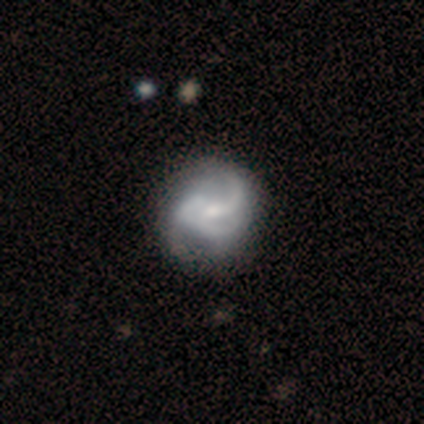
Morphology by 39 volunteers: smooth-or-featured: featured or disk: 87% | smooth: 10% | star or artifact: 3%
  disk-edge-on: no: 100% | yes: 0%
    bar: no: 47% | weak: 32% | strong: 21%
    has-spiral-arms: yes: 88% | no: 12%
      spiral-winding: medium: 47% | loose: 33% | tight: 20%
      spiral-arm-count: 2: 43% | 3: 27% | can't tell: 20% | 1: 10% | 4: 0% | more than 4: 0%
    bulge-size: small: 59% | moderate: 35% | large: 3% | none: 3% | dominant: 0%
  merging: none: 34% | minor disturbance: 26% | major disturbance: 11% | merger: 0%